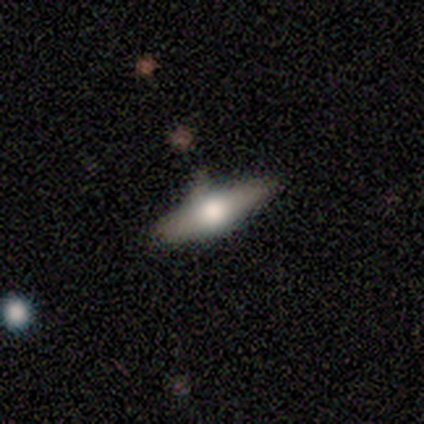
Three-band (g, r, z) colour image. It shows a featured or disk galaxy (57%) viewed edge-on (100%) with a rounded central bulge (100%). Merging: none (57%).